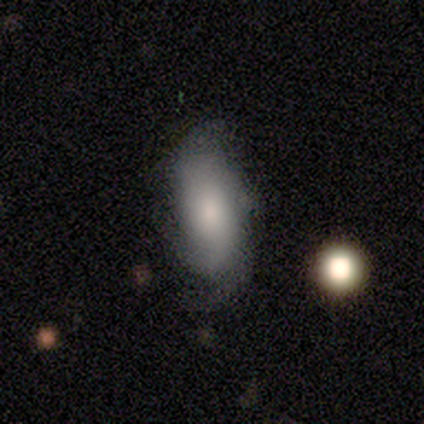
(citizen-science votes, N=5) smooth 60%, featured or disk 40%, star or artifact 0%. Down the decision tree: how rounded — in between (100%); merging — none (60%).